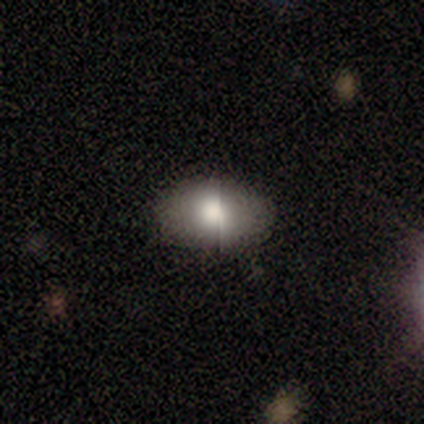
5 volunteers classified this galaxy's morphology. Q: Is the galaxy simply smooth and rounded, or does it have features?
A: smooth — 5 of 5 (100%).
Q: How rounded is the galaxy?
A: in between — 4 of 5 (80%).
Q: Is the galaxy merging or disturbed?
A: none — 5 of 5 (100%).